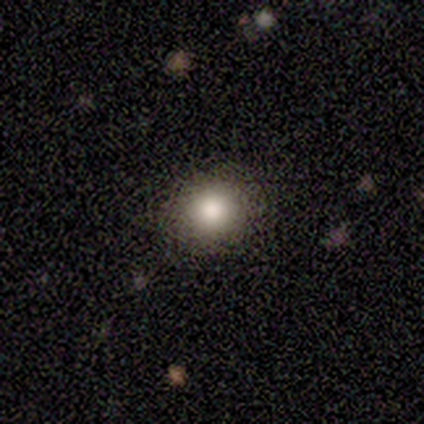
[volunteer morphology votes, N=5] smooth-or-featured: smooth: 100% | featured or disk: 0% | star or artifact: 0%
  how-rounded: round: 60% | in between: 40% | cigar-shaped: 0%
  merging: none: 100% | minor disturbance: 0% | major disturbance: 0% | merger: 0%